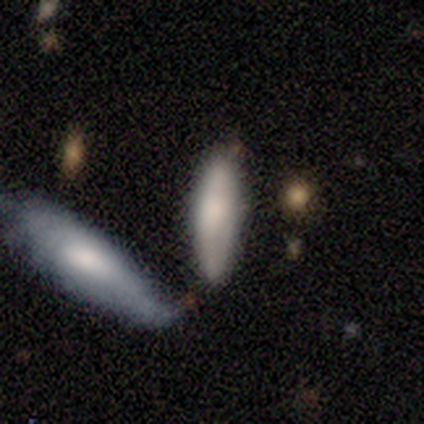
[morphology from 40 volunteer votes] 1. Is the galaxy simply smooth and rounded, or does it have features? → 82% smooth, 15% featured or disk, 2% star or artifact.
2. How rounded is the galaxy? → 48% in between, 42% cigar-shaped, 9% round.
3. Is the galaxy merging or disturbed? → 49% none, 28% merger, 23% minor disturbance, 0% major disturbance.